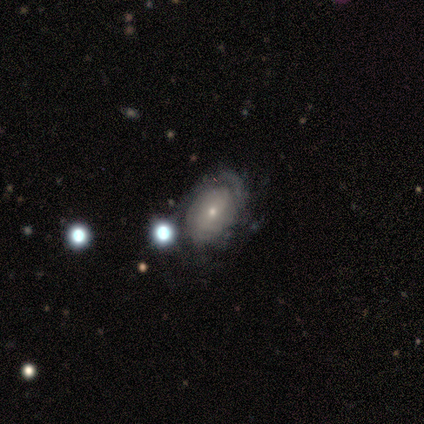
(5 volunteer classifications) Morphology: type=featured or disk (60%); edge-on=no (100%); bar=no (67%); spiral arms=no (67%); bulge=small (100%); merging=none (80%).